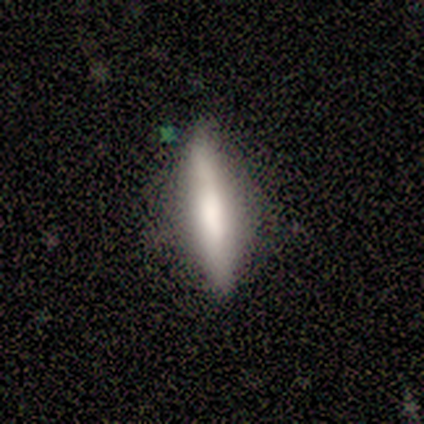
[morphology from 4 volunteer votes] Smooth or featured?
  - smooth: 50% * (tied)
  - featured or disk: 50% * (tied)
  - star or artifact: 0%
How rounded?
  - cigar-shaped: 100% *
  - round: 0%
  - in between: 0%
Merging?
  - minor disturbance: 50% *
  - none: 25%
  - merger: 25%
  - major disturbance: 0%